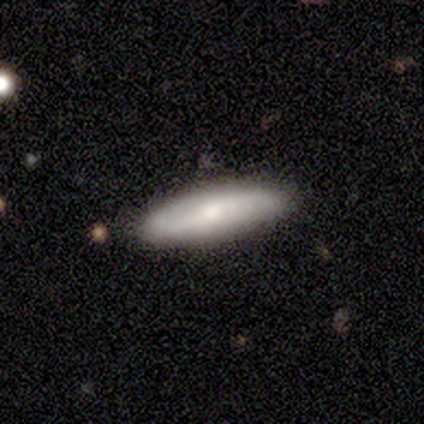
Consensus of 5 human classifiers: This appears to be a featured or disk galaxy (60%) viewed edge-on (67%) with a rounded central bulge (100%). Merging: none (80%).